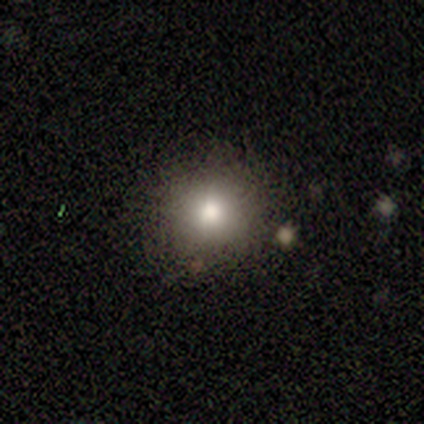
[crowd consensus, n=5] Smooth or featured? smooth (100%)
How rounded? round (100%)
Merging? none (60%)